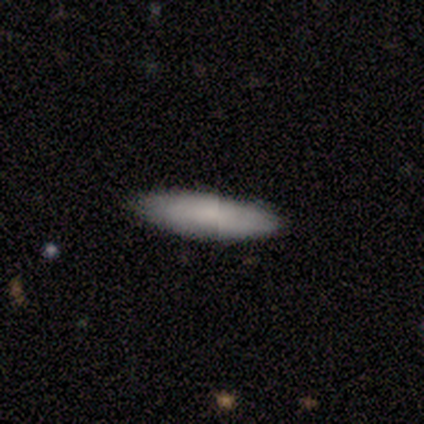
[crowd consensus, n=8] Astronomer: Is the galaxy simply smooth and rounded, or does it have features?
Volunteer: smooth — 62%.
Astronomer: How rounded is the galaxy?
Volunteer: cigar-shaped — 60% (runner-up: in between, 40%).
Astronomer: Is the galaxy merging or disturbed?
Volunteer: none — 75%.